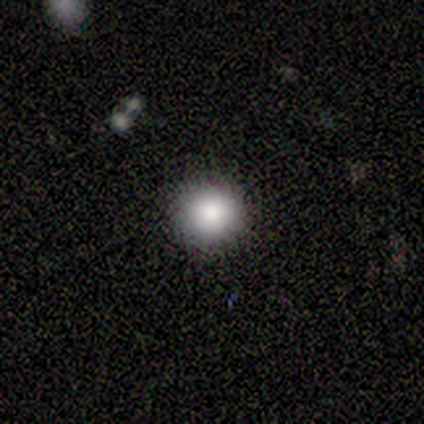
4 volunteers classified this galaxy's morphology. A smooth galaxy with no disk features (75%) that is round (100%).

Vote fractions:
- Smooth or featured? smooth: 75% / star or artifact: 25% / featured or disk: 0%
- How rounded? round: 100% / in between: 0% / cigar-shaped: 0%
- Merging? none: 67% / minor disturbance: 33% / major disturbance: 0% / merger: 0%